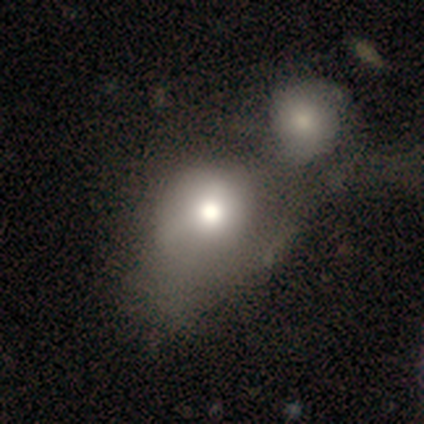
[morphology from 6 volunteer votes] This appears to be a smooth galaxy with no disk features (67%) that is round (75%). Merging: merger (67%).